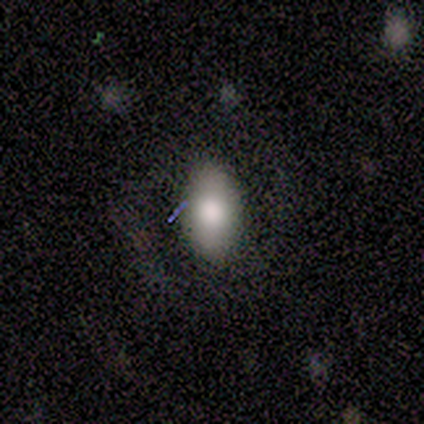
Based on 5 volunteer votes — Volunteers were most divided on "merging": minor disturbance: 60%, none: 40%, major disturbance: 0%, merger: 0%. More confident: how rounded — in between (100%); smooth or featured — smooth (80%).